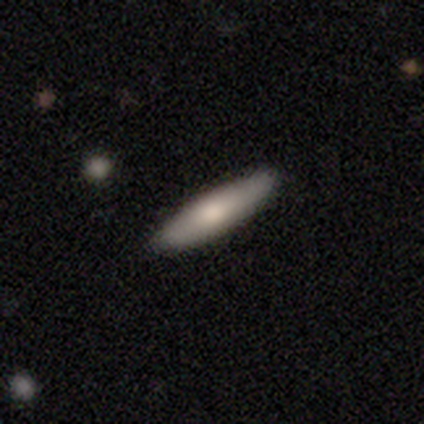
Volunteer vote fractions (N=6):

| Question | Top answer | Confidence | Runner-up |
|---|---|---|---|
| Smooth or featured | smooth | 67% | featured or disk (17%) |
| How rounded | cigar-shaped | 75% | in between (25%) |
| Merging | none | 100% | — |